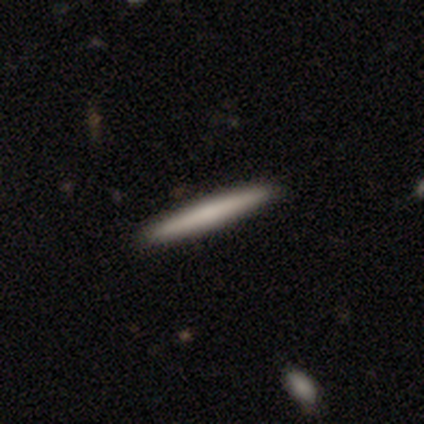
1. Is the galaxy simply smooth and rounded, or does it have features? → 64% smooth, 33% featured or disk, 3% star or artifact.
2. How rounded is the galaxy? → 100% cigar-shaped, 0% round, 0% in between.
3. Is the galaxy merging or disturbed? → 97% none, 3% minor disturbance, 0% major disturbance, 0% merger.